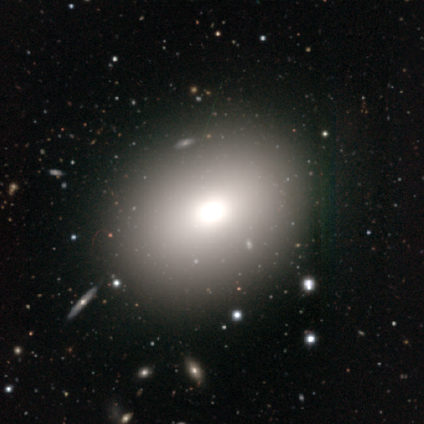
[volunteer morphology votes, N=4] This is possibly a smooth galaxy (50%). How rounded: possibly round (50%, tied with in between). Merging: clearly none (100%).